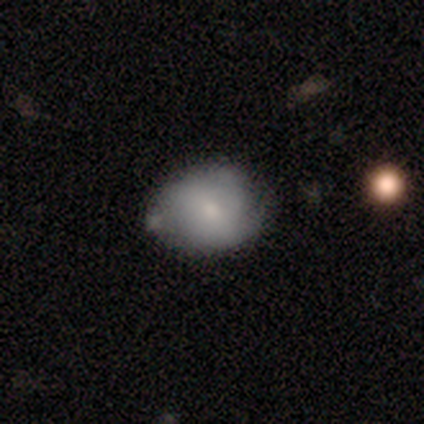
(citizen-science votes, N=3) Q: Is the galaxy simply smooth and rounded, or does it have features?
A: smooth — 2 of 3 (67%).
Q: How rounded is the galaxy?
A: in between — 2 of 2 (100%).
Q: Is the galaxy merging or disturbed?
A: none — 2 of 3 (67%).